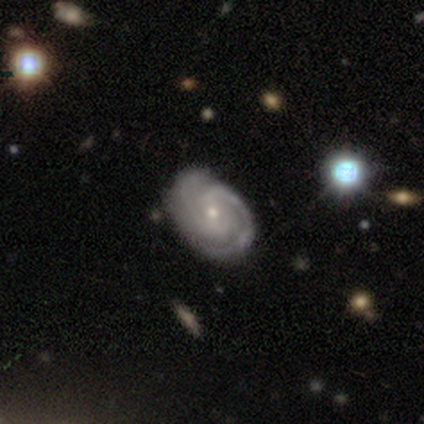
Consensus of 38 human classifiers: A featured or disk galaxy (89%) with a weak bar (59%), 2 (82%) tight (64%) spiral arms (97%) and a small central bulge (82%).

Vote fractions:
- Smooth or featured? featured or disk: 89% / smooth: 11% / star or artifact: 0%
- Edge-on disk? no: 100% / yes: 0%
- Bar? weak: 59% / no: 32% / strong: 9%
- Spiral arms? yes: 97% / no: 3%
- Spiral winding? tight: 64% / medium: 30% / loose: 6%
- Spiral arm count? 2: 82% / 3: 9% / can't tell: 9% / 1: 0% / 4: 0% / more than 4: 0%
- Bulge size? small: 82% / moderate: 15% / none: 3% / dominant: 0% / large: 0%
- Merging? none: 55% / minor disturbance: 13% / merger: 11% / major disturbance: 3%